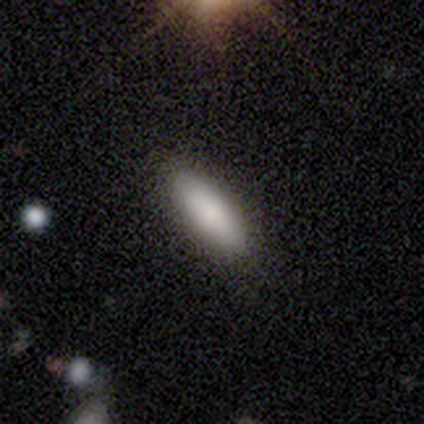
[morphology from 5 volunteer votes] smooth-or-featured: smooth: 100% | featured or disk: 0% | star or artifact: 0%
  how-rounded: in between: 60% | cigar-shaped: 40% | round: 0%
  merging: none: 80% | minor disturbance: 20% | major disturbance: 0% | merger: 0%